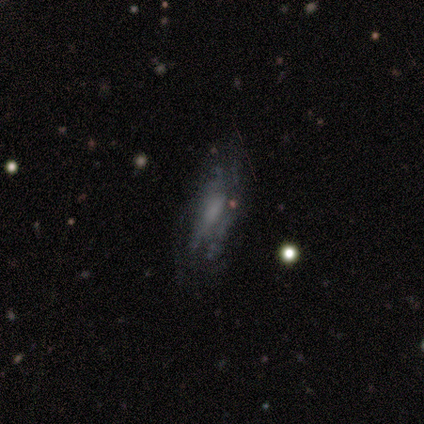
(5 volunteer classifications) This is likely a smooth galaxy (60%). How rounded: clearly in between (100%). Merging: possibly minor disturbance (50%).